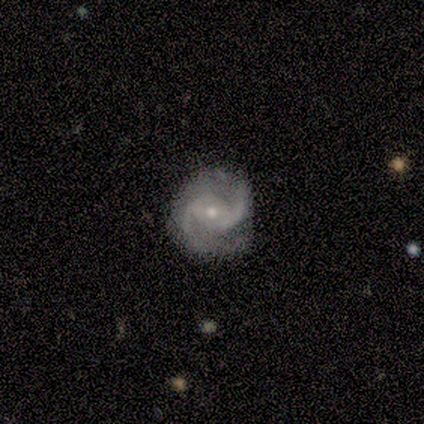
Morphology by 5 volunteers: smooth-or-featured: featured or disk: 100% | smooth: 0% | star or artifact: 0%
  disk-edge-on: no: 100% | yes: 0%
    bar: weak: 40% (tied) | no: 40% (tied) | strong: 20%
    has-spiral-arms: yes: 100% | no: 0%
      spiral-winding: medium: 100% | tight: 0% | loose: 0%
      spiral-arm-count: 2: 80% | can't tell: 20% | 1: 0% | 3: 0% | 4: 0% | more than 4: 0%
    bulge-size: small: 80% | moderate: 20% | dominant: 0% | large: 0% | none: 0%
  merging: none: 100% | minor disturbance: 0% | major disturbance: 0% | merger: 0%